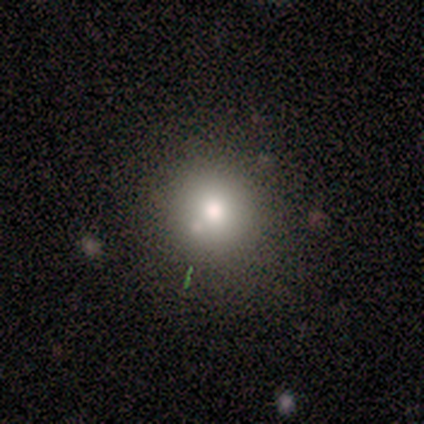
Volunteers were most divided on "smooth or featured": smooth: 67%, featured or disk: 25%, star or artifact: 8%. More confident: merging — none (91%); how rounded — round (88%).